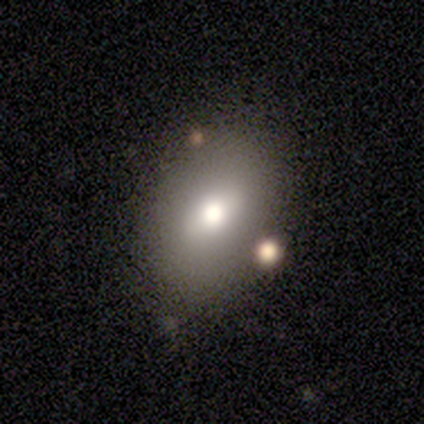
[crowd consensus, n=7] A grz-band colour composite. It shows a smooth galaxy with no disk features (86%) that is in between round and cigar-shaped (100%). Merging: none (86%).